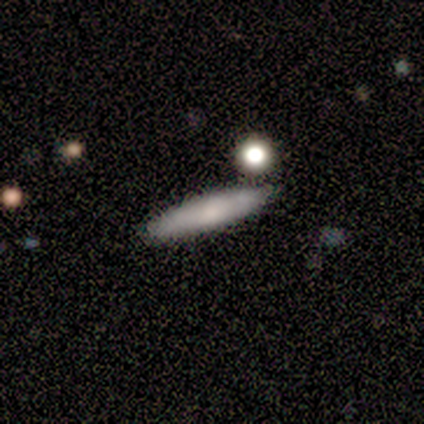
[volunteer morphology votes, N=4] Smooth or featured?
  - smooth: 50% * (tied)
  - featured or disk: 50% * (tied)
  - star or artifact: 0%
How rounded?
  - cigar-shaped: 100% *
  - round: 0%
  - in between: 0%
Merging?
  - none: 100% *
  - minor disturbance: 0%
  - major disturbance: 0%
  - merger: 0%